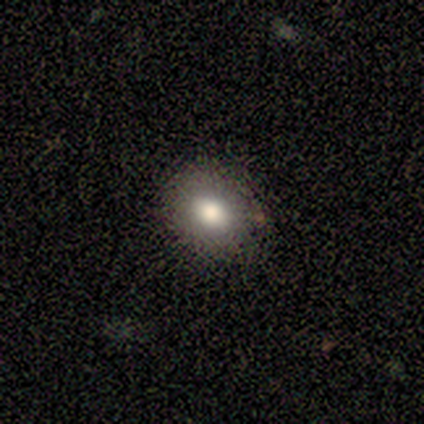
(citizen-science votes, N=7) This is clearly a smooth galaxy (100%). How rounded: possibly in between (57%). Merging: clearly none (100%).